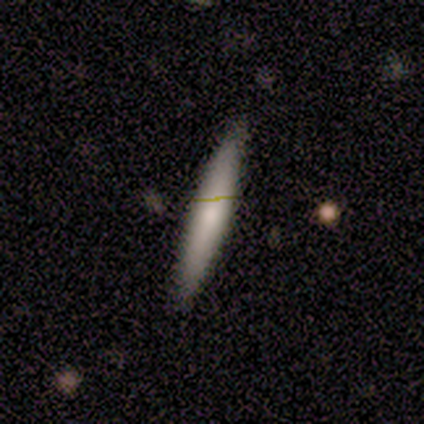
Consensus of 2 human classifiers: Smooth or featured? featured or disk (100%)
Edge-on disk? yes (100%)
Edge-on bulge? none (50%, tied with rounded)
Merging? none (100%)